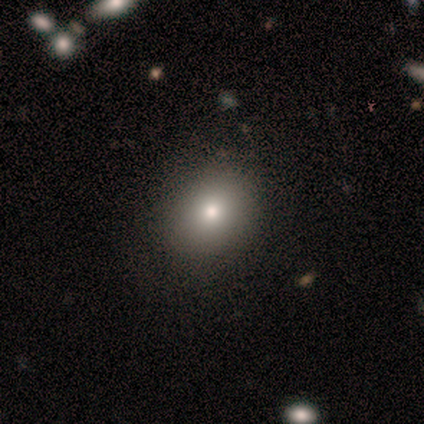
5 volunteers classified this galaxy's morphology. Smooth or featured? smooth (80%)
How rounded? round (75%)
Merging? none (100%)